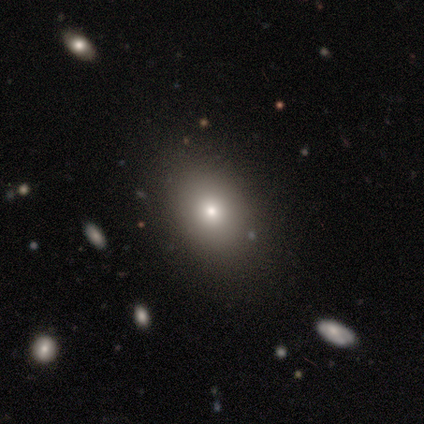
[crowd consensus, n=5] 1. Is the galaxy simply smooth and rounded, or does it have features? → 60% smooth, 40% star or artifact, 0% featured or disk.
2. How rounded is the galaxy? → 100% in between, 0% round, 0% cigar-shaped.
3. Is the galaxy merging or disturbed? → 100% none, 0% minor disturbance, 0% major disturbance, 0% merger.